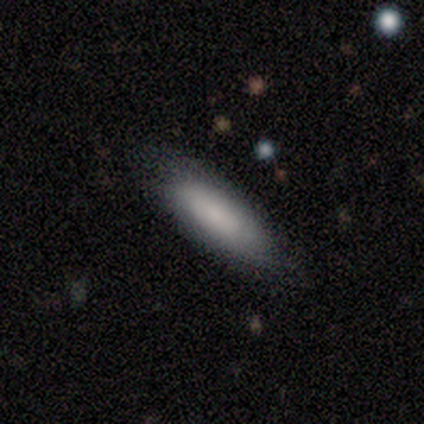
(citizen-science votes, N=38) This appears to be a smooth galaxy with no disk features (79%) that is in between round and cigar-shaped (50%, tied with cigar-shaped). Merging: none (78%).